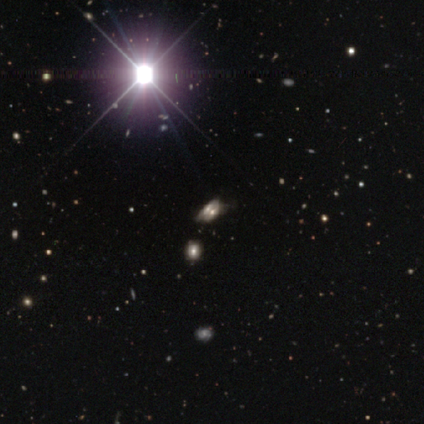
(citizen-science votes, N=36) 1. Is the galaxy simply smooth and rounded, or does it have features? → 47% star or artifact, 36% featured or disk, 17% smooth.